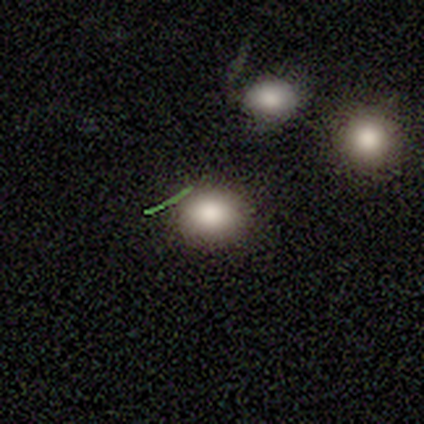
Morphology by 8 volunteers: smooth-or-featured: smooth: 88% | star or artifact: 12% | featured or disk: 0%
  how-rounded: round: 86% | in between: 14% | cigar-shaped: 0%
  merging: none: 86% | minor disturbance: 14% | major disturbance: 0% | merger: 0%